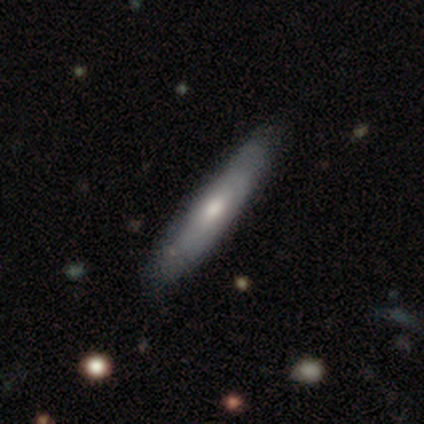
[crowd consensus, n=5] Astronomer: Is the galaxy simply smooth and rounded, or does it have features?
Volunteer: featured or disk — 100%.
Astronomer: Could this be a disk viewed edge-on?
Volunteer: yes — 60% (runner-up: no, 40%).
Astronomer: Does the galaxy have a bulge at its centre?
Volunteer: rounded — 100%.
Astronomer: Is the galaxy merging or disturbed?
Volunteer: none — 80%.